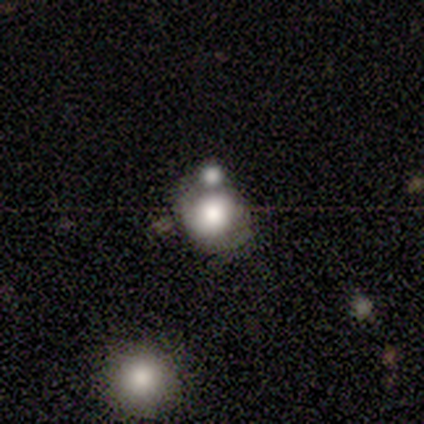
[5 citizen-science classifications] This appears to be a smooth galaxy with no disk features (60%) that is round (100%). Merging: minor disturbance (60%).